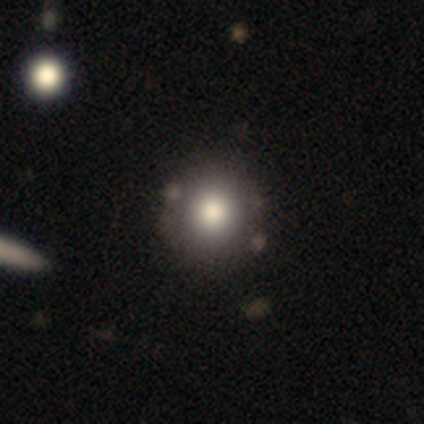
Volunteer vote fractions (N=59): Volunteers were most divided on "smooth or featured": smooth: 71%, star or artifact: 19%, featured or disk: 10%. More confident: merging — none (88%); how rounded — round (86%).